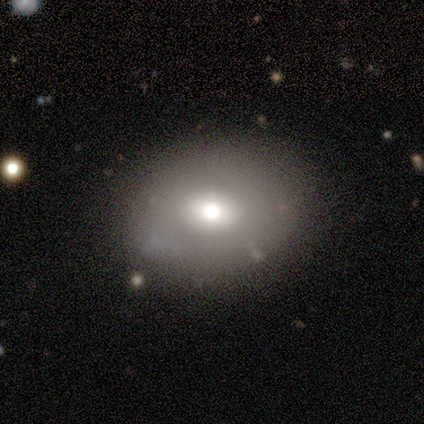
Q: Smooth or featured?
A: star or artifact (67%); runner-up: smooth (33%)